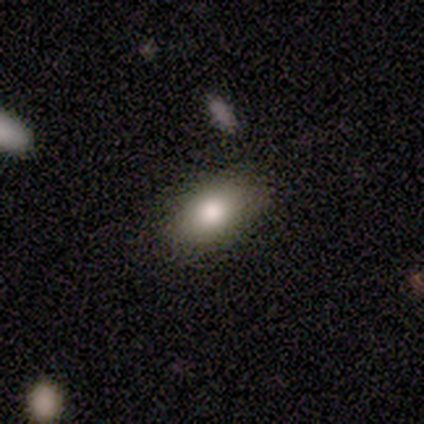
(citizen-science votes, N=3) Smooth or featured? 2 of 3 (67%) said smooth. How rounded? 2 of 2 (100%) said in between. Merging? 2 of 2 (100%) said none.